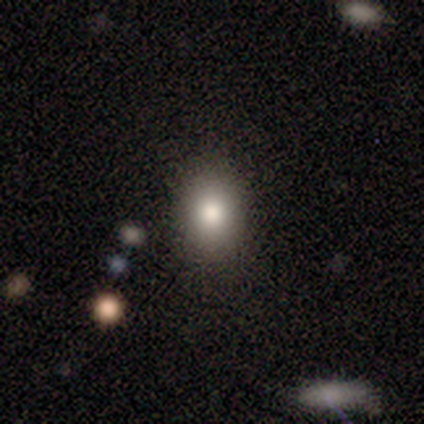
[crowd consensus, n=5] A smooth galaxy with no disk features (100%) that is in between round and cigar-shaped (60%).

Vote fractions:
- Smooth or featured? smooth: 100% / featured or disk: 0% / star or artifact: 0%
- How rounded? in between: 60% / round: 40% / cigar-shaped: 0%
- Merging? none: 80% / minor disturbance: 20% / major disturbance: 0% / merger: 0%